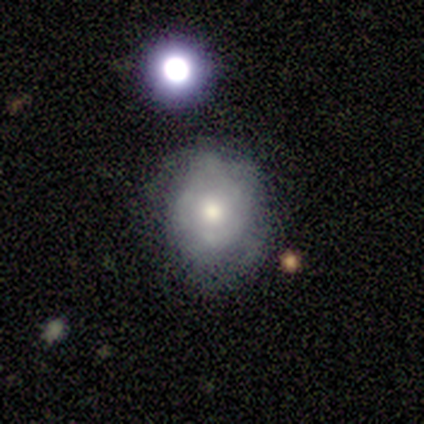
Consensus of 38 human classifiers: Q: Smooth or featured?
A: smooth (53%); runner-up: featured or disk (42%)
Q: How rounded?
A: round (85%); runner-up: in between (15%)
Q: Merging?
A: none (53%); runner-up: minor disturbance (36%)